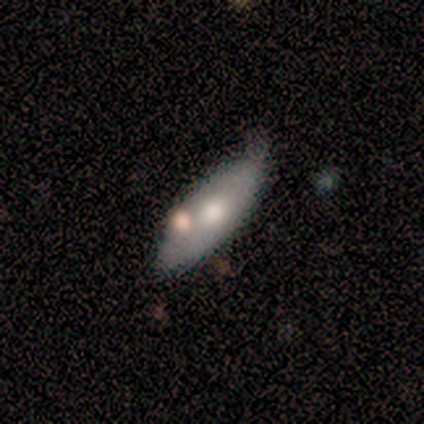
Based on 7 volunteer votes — Morphology: type=smooth (57%); roundness=in between (75%); merging=none (57%).